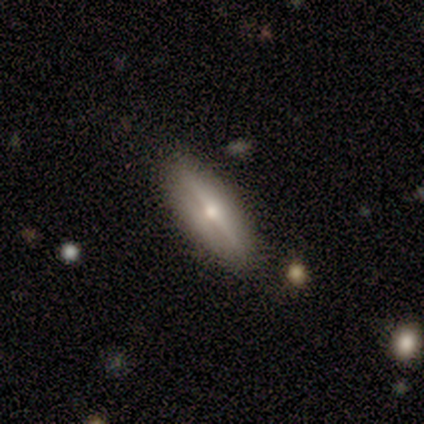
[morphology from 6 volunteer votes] Volunteers were most divided on "smooth or featured": smooth: 50%, featured or disk: 33%, star or artifact: 17%. More confident: merging — none (80%); how rounded — in between (67%).